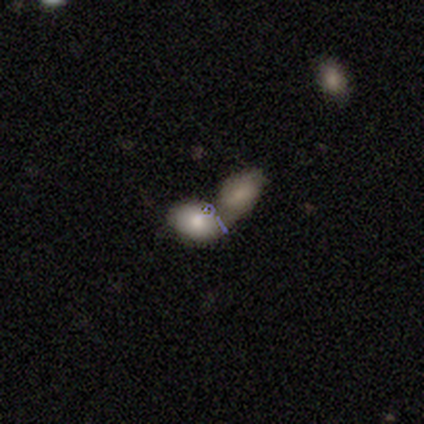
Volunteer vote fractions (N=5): This appears to be a smooth galaxy with no disk features (100%) that is in between round and cigar-shaped (100%). Merging: merger (100%).